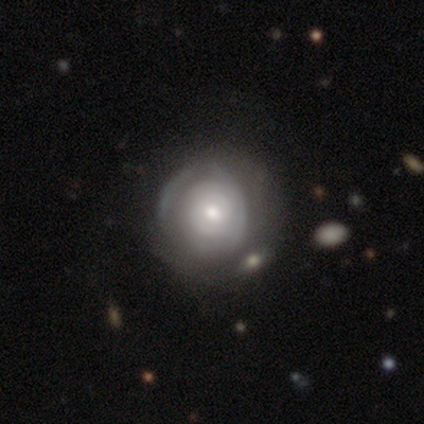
Volunteers were most divided on "spiral arm count" (3-way tie): 1: 33%, 2: 33%, can't tell: 33%, 3: 0%, 4: 0%, more than 4: 0%; "bulge size" (2-way tie): moderate: 40%, small: 40%, large: 20%, dominant: 0%, none: 0%. More confident: smooth or featured — featured or disk (100%); edge-on disk — no (100%); spiral winding — tight (100%); bar — no (60%); spiral arms — yes (60%); merging — none (60%).